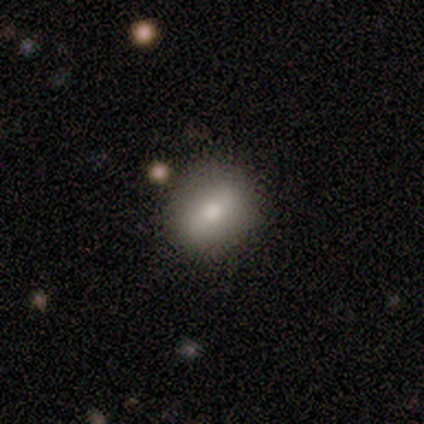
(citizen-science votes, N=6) Smooth or featured? smooth (100%)
How rounded? round (67%)
Merging? none (100%)